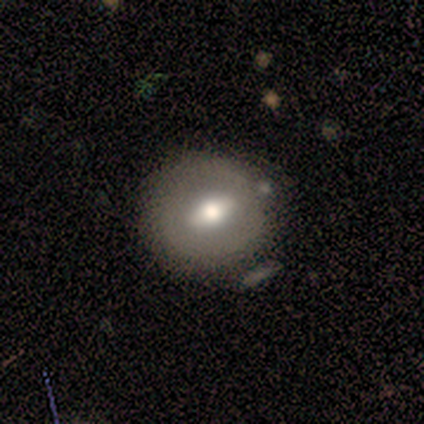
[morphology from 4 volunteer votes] type=featured or disk (75%); edge-on=no (100%); bar=weak (67%); spiral arms=no (100%); bulge=moderate (67%); merging=none (75%).